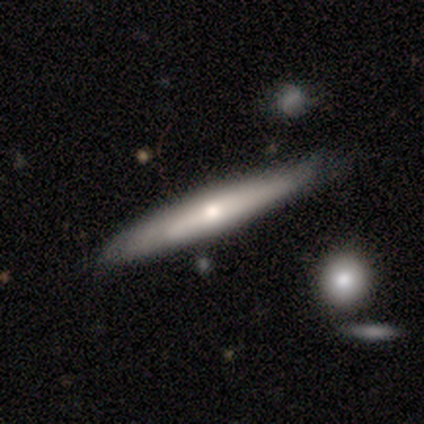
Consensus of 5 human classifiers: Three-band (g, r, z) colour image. It shows a smooth galaxy with no disk features (60%) that is cigar-shaped (100%). Merging: none (80%).